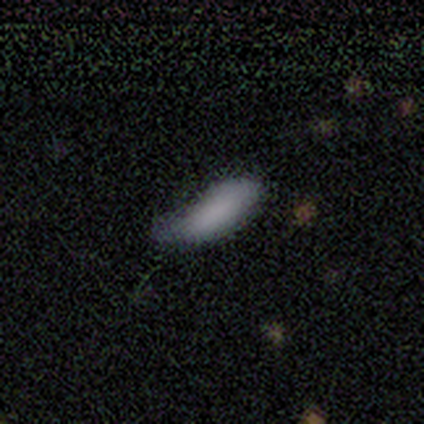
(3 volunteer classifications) Smooth or featured?
  - smooth: 100% *
  - featured or disk: 0%
  - star or artifact: 0%
How rounded?
  - in between: 67% *
  - cigar-shaped: 33%
  - round: 0%
Merging?
  - minor disturbance: 100% *
  - none: 0%
  - major disturbance: 0%
  - merger: 0%